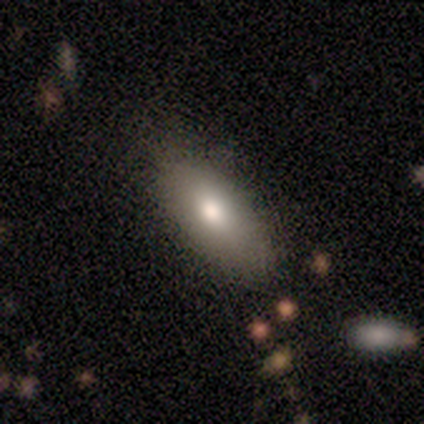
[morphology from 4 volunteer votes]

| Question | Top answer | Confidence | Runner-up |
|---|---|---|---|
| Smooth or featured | smooth | 50% | featured or disk (25%) |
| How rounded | in between | 100% | — |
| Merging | none | 67% | minor disturbance (33%) |